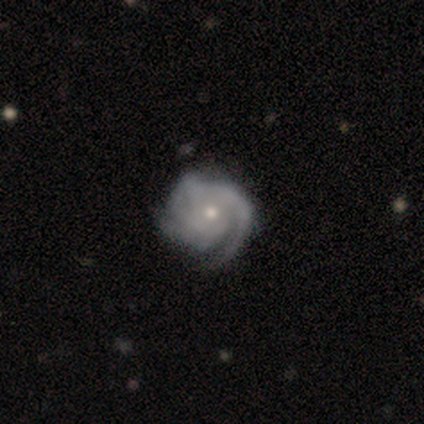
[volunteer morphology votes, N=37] Smooth or featured: featured or disk — 97% (star or artifact — 3%)
Edge-on disk: no — 100%
Bar: no — 83% (weak — 17%)
Spiral arms: yes — 97% (no — 3%)
Spiral winding: tight — 77% (medium — 17%)
Spiral arm count: 3 — 71% (can't tell — 14%)
Bulge size: moderate — 53% (small — 47%)
Merging: none — 50% (minor disturbance — 14%)